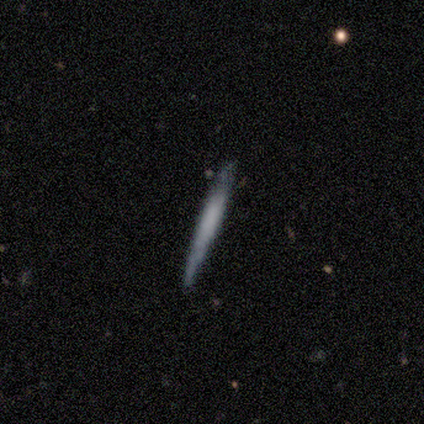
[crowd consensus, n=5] Smooth or featured: featured or disk — 80% (smooth — 20%)
Edge-on disk: yes — 100%
Edge-on bulge: none — 75% (boxy — 25%)
Merging: none — 60% (minor disturbance — 40%)